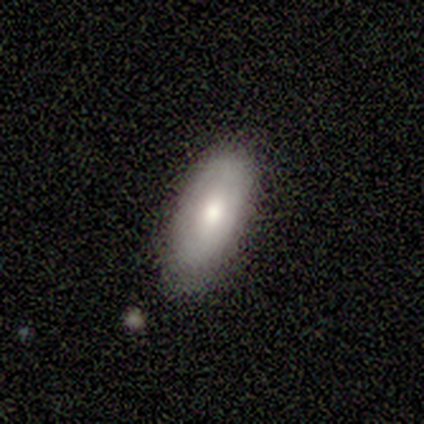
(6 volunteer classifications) Smooth or featured: smooth — 67% (featured or disk — 33%)
How rounded: in between — 50% (tied with cigar-shaped — 50%)
Merging: none — 67% (minor disturbance — 17%)